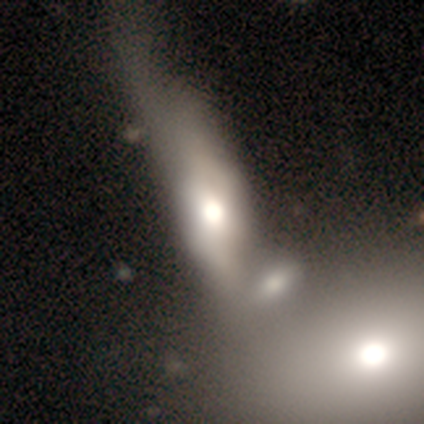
Smooth or featured: smooth — 56% (featured or disk — 38%)
How rounded: in between — 91% (cigar-shaped — 9%)
Merging: merger — 57% (major disturbance — 22%)